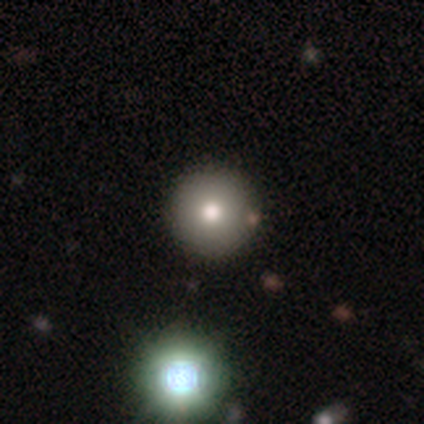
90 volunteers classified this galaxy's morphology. type=smooth (69%); roundness=round (98%); merging=none (88%).